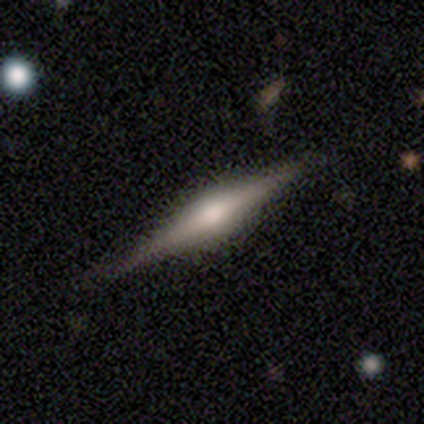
Smooth or featured?
  - featured or disk: 85% *
  - smooth: 15%
  - star or artifact: 0%
Edge-on disk?
  - yes: 100% *
  - no: 0%
Edge-on bulge?
  - rounded: 88% *
  - boxy: 10%
  - none: 2%
Merging?
  - none: 85% *
  - minor disturbance: 15%
  - major disturbance: 0%
  - merger: 0%